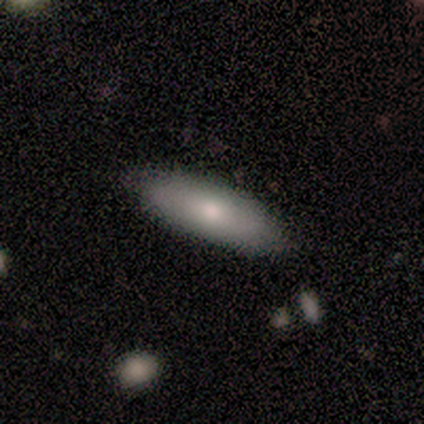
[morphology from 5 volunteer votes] Q: Smooth or featured?
A: smooth (80%); runner-up: featured or disk (20%)
Q: How rounded?
A: in between (50%); tied with: cigar-shaped (50%)
Q: Merging?
A: none (100%)